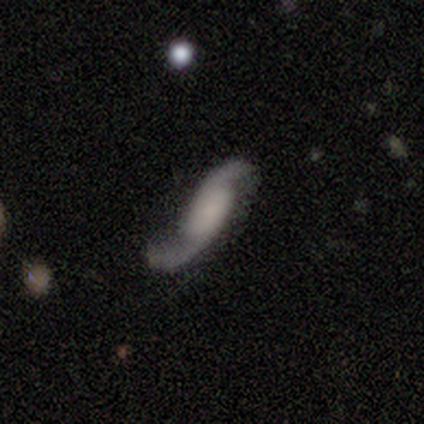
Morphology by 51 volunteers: type=featured or disk (80%); edge-on=no (95%); bar=no (64%); spiral arms=yes (97%); winding=loose (76%); arm count=2 (95%); bulge=none (49%); merging=none (44%).